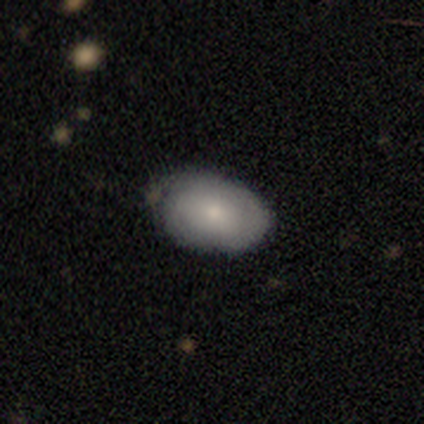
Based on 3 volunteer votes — This is likely a smooth galaxy (67%). How rounded: clearly in between (100%). Merging: likely minor disturbance (67%).